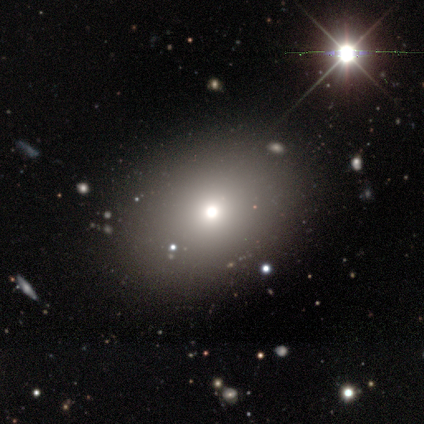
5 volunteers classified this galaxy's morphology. A smooth galaxy with no disk features (40%, tied with star or artifact) that is round (50%, tied with in between).

Vote fractions:
- Smooth or featured? smooth: 40% (tied) / star or artifact: 40% (tied) / featured or disk: 20%
- How rounded? round: 50% (tied) / in between: 50% (tied) / cigar-shaped: 0%
- Merging? none: 100% / minor disturbance: 0% / major disturbance: 0% / merger: 0%